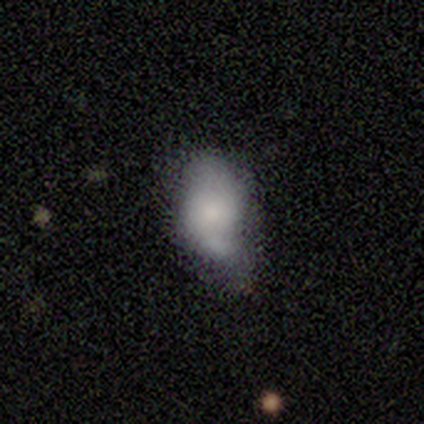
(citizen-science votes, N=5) A smooth galaxy with no disk features (100%) that is in between round and cigar-shaped (80%).

Vote fractions:
- Smooth or featured? smooth: 100% / featured or disk: 0% / star or artifact: 0%
- How rounded? in between: 80% / round: 20% / cigar-shaped: 0%
- Merging? minor disturbance: 60% / merger: 40% / none: 0% / major disturbance: 0%